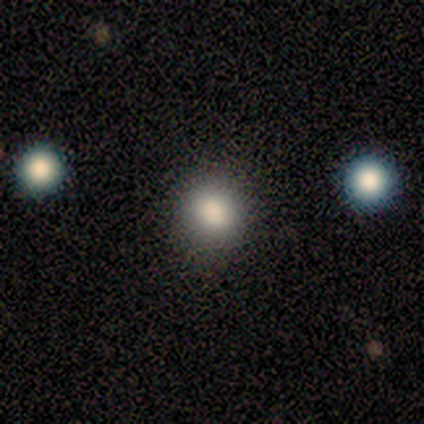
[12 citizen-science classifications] Smooth or featured? smooth (92%)
How rounded? round (91%)
Merging? none (73%)